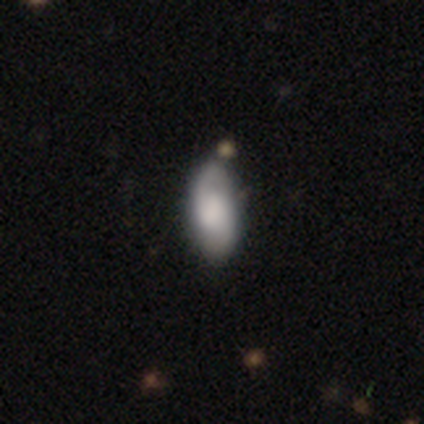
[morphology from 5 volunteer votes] Q: Smooth or featured?
A: smooth (60%); runner-up: featured or disk (40%)
Q: How rounded?
A: cigar-shaped (67%); runner-up: in between (33%)
Q: Merging?
A: minor disturbance (60%); runner-up: none (40%)